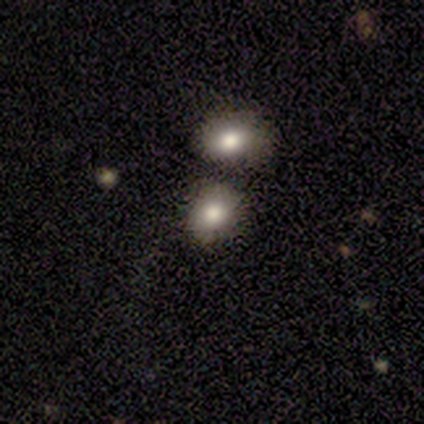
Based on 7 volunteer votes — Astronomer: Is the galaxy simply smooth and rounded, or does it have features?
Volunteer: smooth — 86%.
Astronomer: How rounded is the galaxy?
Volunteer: round — 100%.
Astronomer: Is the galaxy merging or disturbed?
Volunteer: none — 71%.